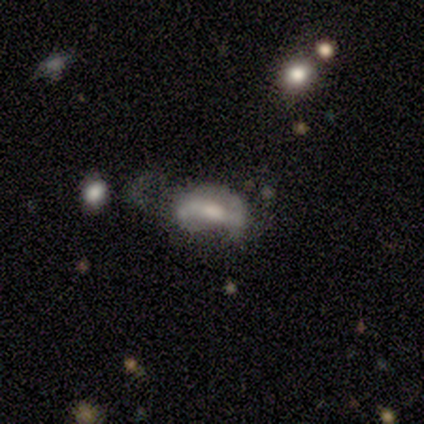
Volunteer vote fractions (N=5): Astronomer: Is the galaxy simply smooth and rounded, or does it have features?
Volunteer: smooth — 60% (runner-up: featured or disk, 40%).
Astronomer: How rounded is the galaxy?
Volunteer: in between — 100%.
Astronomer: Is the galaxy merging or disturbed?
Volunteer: none — 40%, tied with major disturbance at 40%.